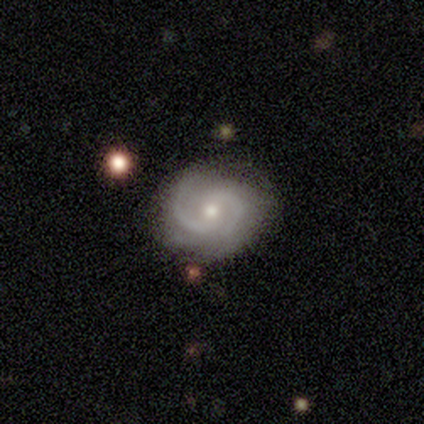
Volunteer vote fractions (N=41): This is clearly a featured or disk galaxy (88%). It is clearly not viewed edge-on (100%). Bar: possibly no (50%). Spiral arm pattern: clearly yes (97%). Spiral arm count: clearly 2 (89%). Spiral winding: likely medium (69%). Central bulge: likely moderate (61%). Merging: likely none (72%).